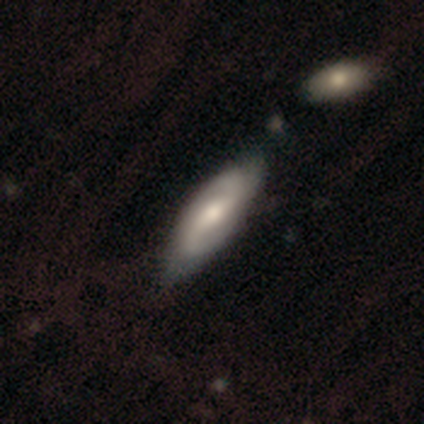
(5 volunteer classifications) Overall: featured or disk (100%). Edge-on disk: no (100%). Bar: weak (60%; strong 20%). Spiral arms: yes (80%). Spiral arm count: 2 (100%). Spiral winding: loose (50%; tight 25%). Bulge size: moderate (80%). Merging: none (80%).